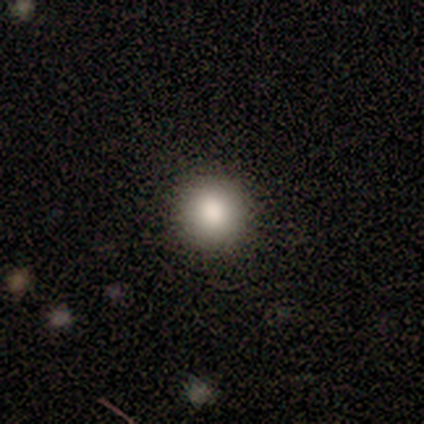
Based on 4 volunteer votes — A smooth galaxy with no disk features (100%) that is round (100%). Merging: none (100%).